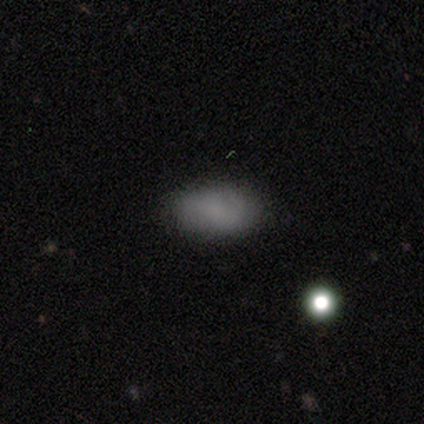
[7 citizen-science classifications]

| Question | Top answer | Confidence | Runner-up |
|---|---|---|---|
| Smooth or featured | smooth | 71% | featured or disk (14%) |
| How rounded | in between | 100% | — |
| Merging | none | 83% | major disturbance (17%) |